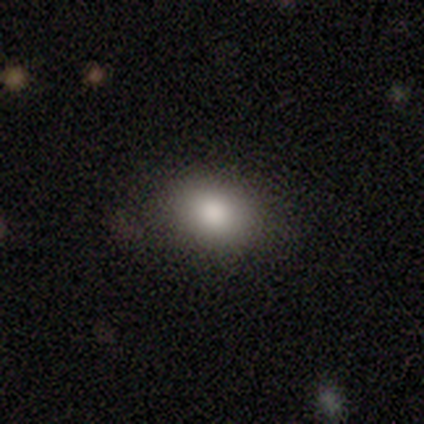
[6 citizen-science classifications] Smooth or featured?
  - smooth: 100% *
  - featured or disk: 0%
  - star or artifact: 0%
How rounded?
  - in between: 67% *
  - round: 33%
  - cigar-shaped: 0%
Merging?
  - none: 83% *
  - major disturbance: 17%
  - minor disturbance: 0%
  - merger: 0%